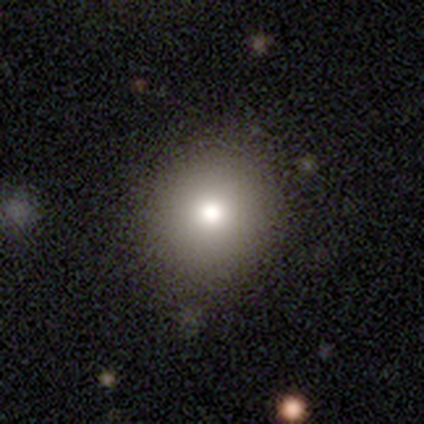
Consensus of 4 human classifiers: A smooth galaxy with no disk features (100%) that is round (100%). Merging: none (100%).